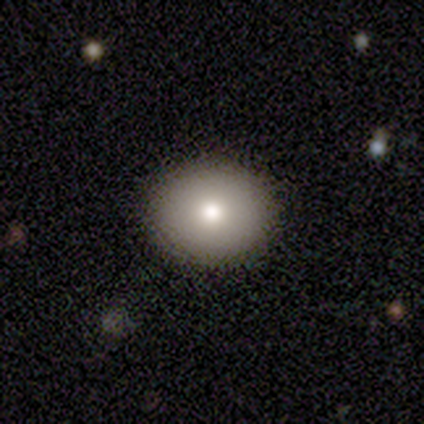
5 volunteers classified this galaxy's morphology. Smooth or featured: smooth — 60% (featured or disk — 40%)
How rounded: round — 67% (in between — 33%)
Merging: none — 80% (major disturbance — 20%)